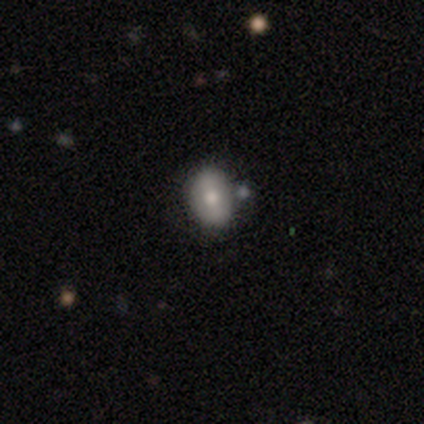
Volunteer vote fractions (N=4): This is clearly a smooth galaxy (100%). How rounded: possibly round (50%, tied with in between). Merging: likely none (75%).